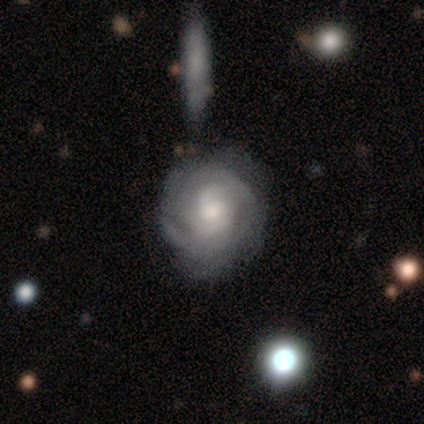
Volunteers were most divided on "bar" (2-way tie): weak: 50%, no: 50%, strong: 0%; "spiral arm count" (2-way tie): 2: 30%, more than 4: 30%, 3: 20%, can't tell: 20%, 1: 0%, 4: 0%. More confident: edge-on disk — no (100%); spiral arms — yes (100%); spiral winding — tight (70%); smooth or featured — featured or disk (62%); bulge size — moderate (60%); merging — minor disturbance (50%).